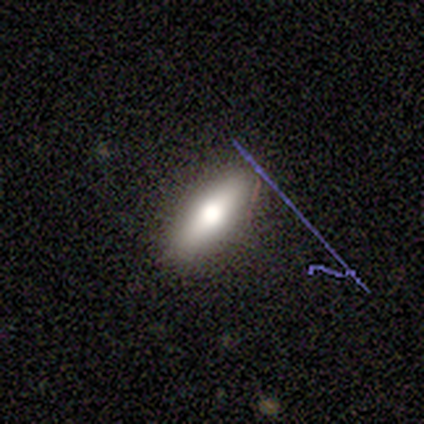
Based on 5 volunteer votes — smooth 80%, star or artifact 20%, featured or disk 0%. Down the decision tree: how rounded — in between (50%, tied with cigar-shaped); merging — none (100%).